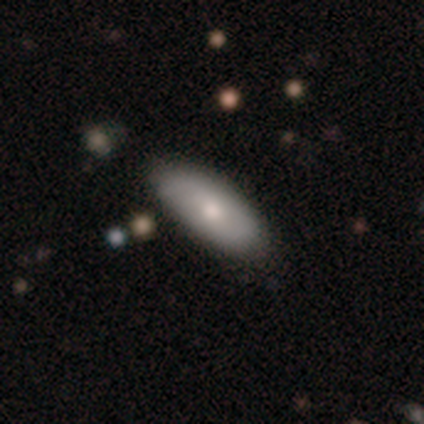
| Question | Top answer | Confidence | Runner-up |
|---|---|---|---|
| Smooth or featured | smooth | 72% | featured or disk (21%) |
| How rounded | in between | 82% | cigar-shaped (18%) |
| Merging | none | 78% | minor disturbance (14%) |